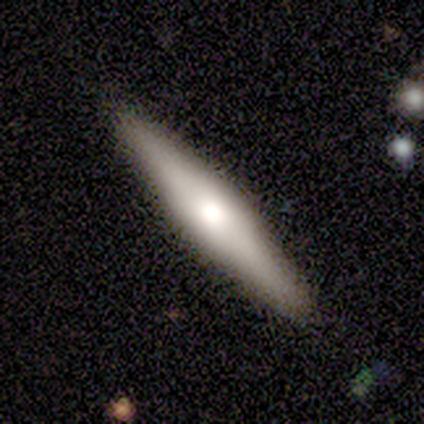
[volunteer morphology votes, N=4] This is possibly a smooth galaxy (50%, tied with featured or disk). How rounded: possibly in between (50%, tied with cigar-shaped). Merging: clearly none (100%).